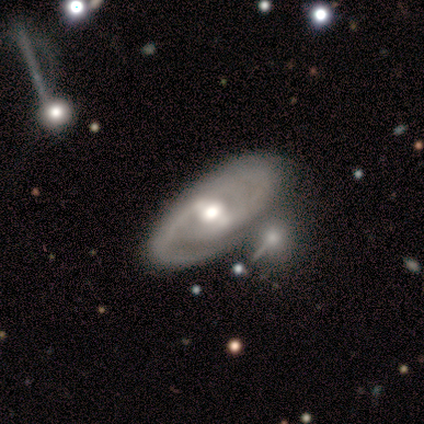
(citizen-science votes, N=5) Volunteers were most divided on "spiral arm count" (2-way tie): 1: 50%, 2: 50%, 3: 0%, 4: 0%, more than 4: 0%, can't tell: 0%; "bulge size" (2-way tie): large: 50%, moderate: 50%, dominant: 0%, small: 0%, none: 0%; "merging" (2-way tie): none: 40%, major disturbance: 40%, merger: 20%, minor disturbance: 0%. More confident: edge-on disk — no (100%); spiral arms — yes (100%); smooth or featured — featured or disk (80%); bar — weak (50%); spiral winding — loose (50%).